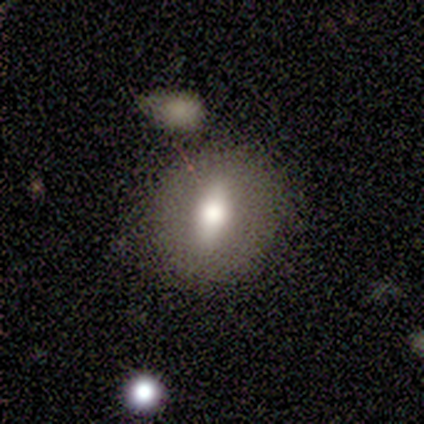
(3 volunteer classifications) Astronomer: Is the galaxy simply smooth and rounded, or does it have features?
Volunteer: smooth — 67%.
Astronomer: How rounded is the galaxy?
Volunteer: round — 50%, tied with cigar-shaped at 50%.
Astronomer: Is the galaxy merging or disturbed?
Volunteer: none — 67%.